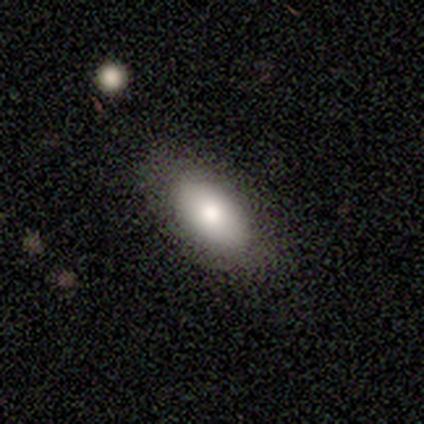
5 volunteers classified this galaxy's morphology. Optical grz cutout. It shows a smooth galaxy with no disk features (60%) that is in between round and cigar-shaped (100%). Merging: none (100%).